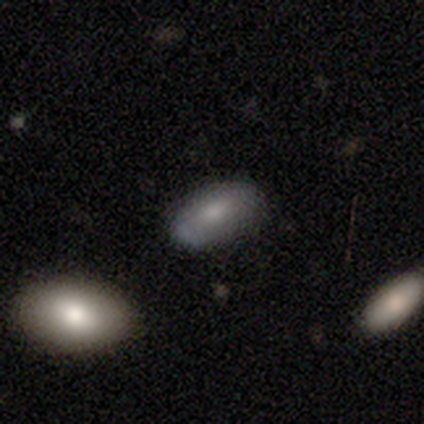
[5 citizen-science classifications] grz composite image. It shows a smooth galaxy with no disk features (80%) that is in between round and cigar-shaped (100%). Merging: none (100%).